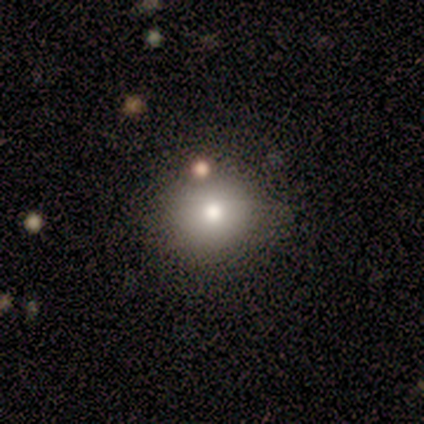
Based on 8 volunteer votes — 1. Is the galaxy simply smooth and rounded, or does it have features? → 50% smooth, 25% featured or disk, 25% star or artifact.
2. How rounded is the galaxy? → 100% round, 0% in between, 0% cigar-shaped.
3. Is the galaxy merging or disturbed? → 83% none, 17% merger, 0% minor disturbance, 0% major disturbance.